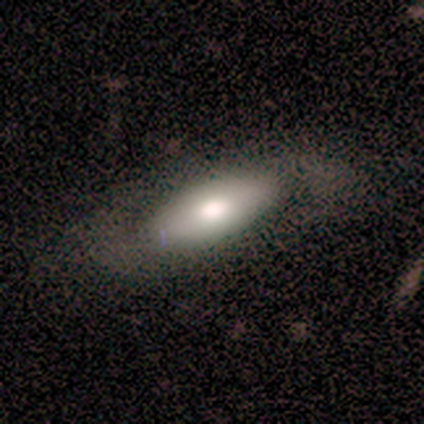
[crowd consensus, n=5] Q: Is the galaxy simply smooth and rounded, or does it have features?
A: featured or disk — 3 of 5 (60%).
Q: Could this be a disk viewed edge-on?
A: no — 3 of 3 (100%).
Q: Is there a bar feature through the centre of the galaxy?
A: no — 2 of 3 (67%).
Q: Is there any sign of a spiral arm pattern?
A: yes — 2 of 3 (67%).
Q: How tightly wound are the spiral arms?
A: medium — 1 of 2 (50%, tied with loose).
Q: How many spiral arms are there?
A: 2 — 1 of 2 (50%, tied with can't tell).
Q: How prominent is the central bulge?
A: large — 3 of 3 (100%).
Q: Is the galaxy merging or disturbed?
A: none — 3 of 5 (60%).